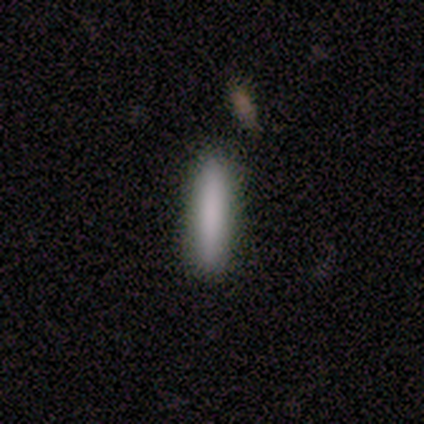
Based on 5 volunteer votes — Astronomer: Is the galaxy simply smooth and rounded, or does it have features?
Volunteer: smooth — 100%.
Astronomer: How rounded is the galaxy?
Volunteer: cigar-shaped — 100%.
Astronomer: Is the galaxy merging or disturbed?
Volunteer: none — 100%.